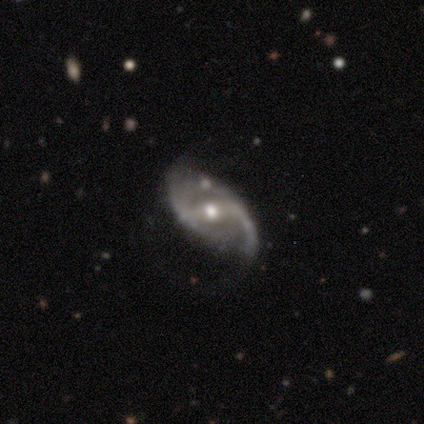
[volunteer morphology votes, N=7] This appears to be a featured or disk galaxy (100%) with a strong bar (100%), 2 (100%) loose (71%) spiral arms (100%) and a moderate central bulge (71%). Merging: none (57%).